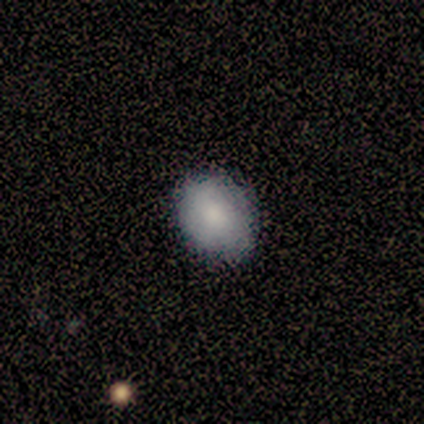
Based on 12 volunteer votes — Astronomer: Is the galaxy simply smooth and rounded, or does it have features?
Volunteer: smooth — 92%.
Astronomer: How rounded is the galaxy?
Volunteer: round — 64%.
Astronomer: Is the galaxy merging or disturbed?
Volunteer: none — 100%.